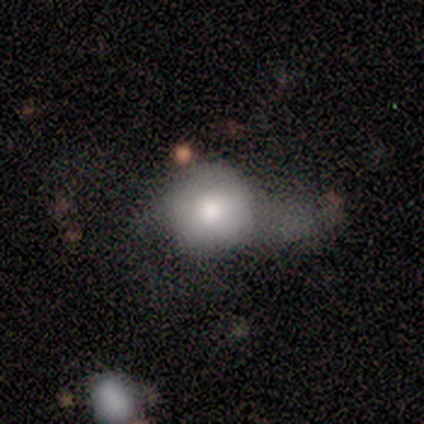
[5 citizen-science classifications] A smooth galaxy with no disk features (100%) that is round (60%).

Vote fractions:
- Smooth or featured? smooth: 100% / featured or disk: 0% / star or artifact: 0%
- How rounded? round: 60% / in between: 40% / cigar-shaped: 0%
- Merging? none: 40% (tied) / minor disturbance: 40% (tied) / major disturbance: 20% / merger: 0%